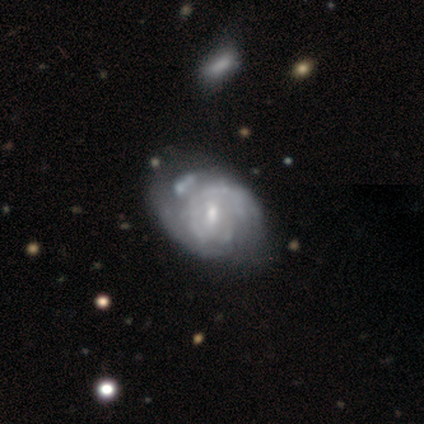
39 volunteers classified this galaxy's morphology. Volunteers were most divided on "merging": none: 33%, minor disturbance: 28%, major disturbance: 18%, merger: 13%. More confident: edge-on disk — no (100%); spiral arms — yes (84%); smooth or featured — featured or disk (82%); spiral winding — tight (59%); bulge size — moderate (56%); spiral arm count — can't tell (56%); bar — weak (53%).